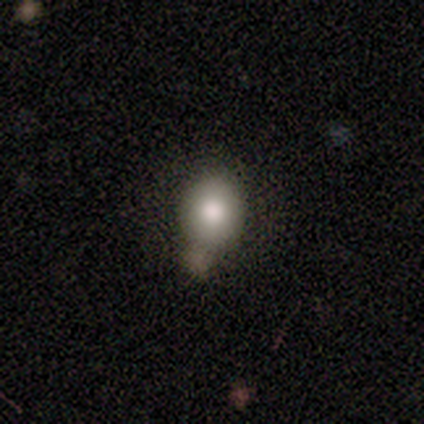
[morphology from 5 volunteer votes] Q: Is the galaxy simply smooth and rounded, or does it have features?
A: smooth — 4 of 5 (80%).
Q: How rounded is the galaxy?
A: in between — 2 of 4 (50%).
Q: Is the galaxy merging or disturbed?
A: none — 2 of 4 (50%, tied with major disturbance).